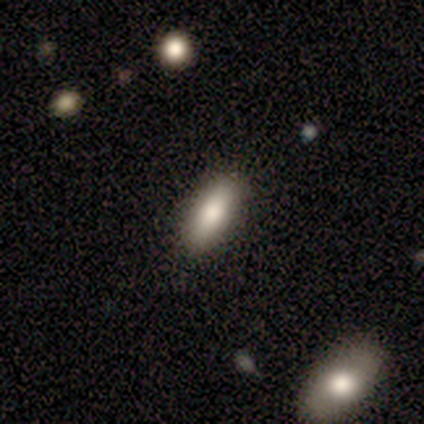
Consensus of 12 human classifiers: A smooth galaxy with no disk features (100%) that is in between round and cigar-shaped (58%). Merging: none (75%).